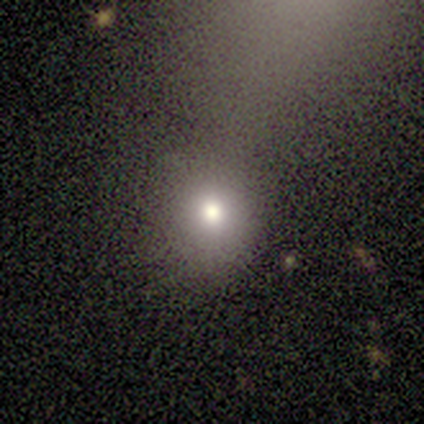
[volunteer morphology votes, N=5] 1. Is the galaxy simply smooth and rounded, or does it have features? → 100% smooth, 0% featured or disk, 0% star or artifact.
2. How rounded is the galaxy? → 80% round, 20% in between, 0% cigar-shaped.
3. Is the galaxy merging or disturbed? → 80% none, 20% major disturbance, 0% minor disturbance, 0% merger.